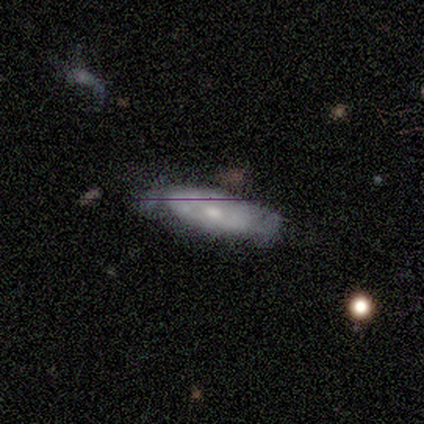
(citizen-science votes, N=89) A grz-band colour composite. It shows a featured or disk galaxy (49%) with no bar (85%), no spiral arms (56%) and a moderate central bulge (56%). Merging: none (55%).